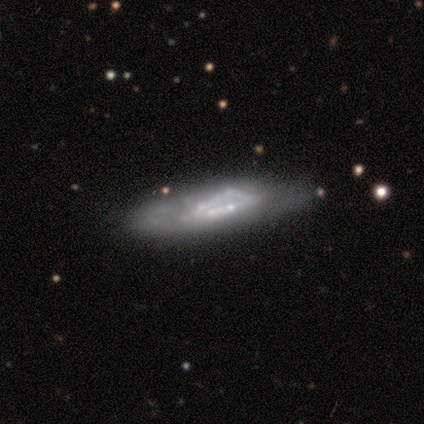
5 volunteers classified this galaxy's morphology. Q: Smooth or featured?
A: featured or disk (100%)
Q: Edge-on disk?
A: no (100%)
Q: Bar?
A: no (100%)
Q: Spiral arms?
A: no (80%); runner-up: yes (20%)
Q: Bulge size?
A: small (40%); tied with: none (40%)
Q: Merging?
A: merger (40%); runner-up: none (20%)